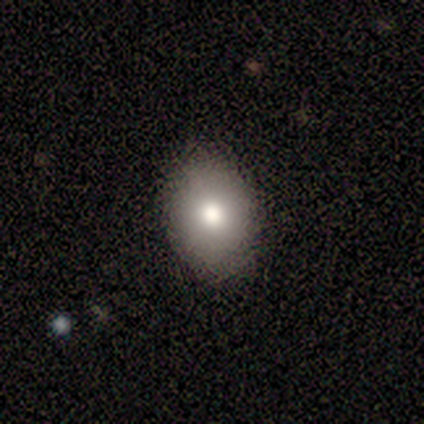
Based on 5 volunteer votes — smooth-or-featured: smooth: 80% | featured or disk: 20% | star or artifact: 0%
  how-rounded: in between: 75% | round: 25% | cigar-shaped: 0%
  merging: none: 100% | minor disturbance: 0% | major disturbance: 0% | merger: 0%